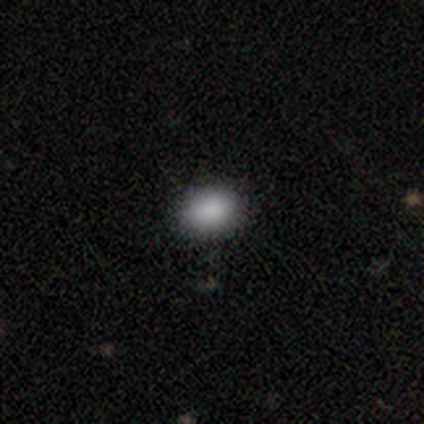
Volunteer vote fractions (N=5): This appears to be a smooth galaxy with no disk features (100%) that is round (60%). Merging: none (100%).